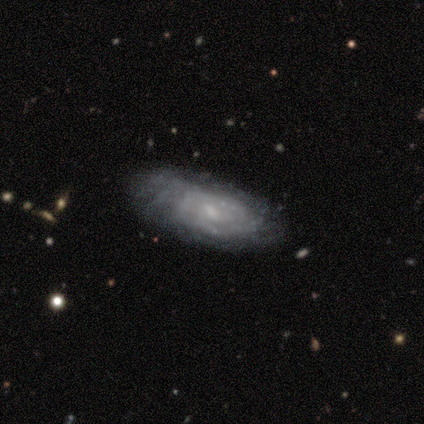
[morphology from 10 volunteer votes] Overall: featured or disk (80%). Edge-on disk: no (100%). Bar: weak (50%, tied with no). Spiral arms: yes (88%). Spiral arm count: can't tell (71%). Spiral winding: tight (86%). Bulge size: small (88%). Merging: none (56%; minor disturbance 33%).